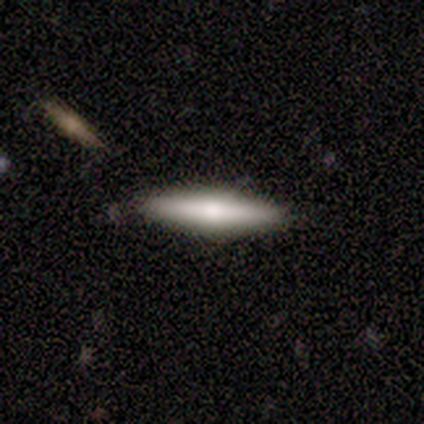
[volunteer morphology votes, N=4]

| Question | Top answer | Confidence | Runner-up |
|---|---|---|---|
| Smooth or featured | smooth | 50% | tied: featured or disk (50%) |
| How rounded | cigar-shaped | 100% | — |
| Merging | none | 100% | — |